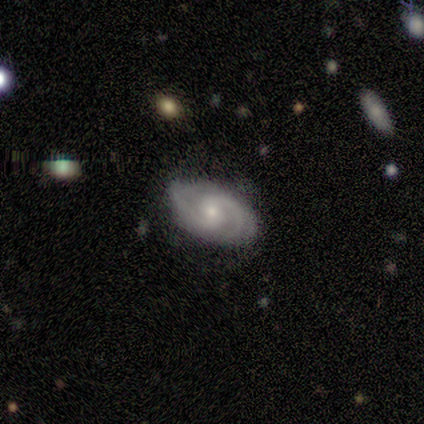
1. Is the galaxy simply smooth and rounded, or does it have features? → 100% featured or disk, 0% smooth, 0% star or artifact.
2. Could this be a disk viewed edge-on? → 100% no, 0% yes.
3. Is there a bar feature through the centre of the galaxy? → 80% weak, 20% no, 0% strong.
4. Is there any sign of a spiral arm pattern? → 100% yes, 0% no.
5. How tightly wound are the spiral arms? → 60% tight, 40% medium, 0% loose.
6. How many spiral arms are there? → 60% 2, 40% can't tell, 0% 1, 0% 3, 0% 4, 0% more than 4.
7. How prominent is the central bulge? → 100% moderate, 0% dominant, 0% large, 0% small, 0% none.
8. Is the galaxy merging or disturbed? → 60% none, 40% minor disturbance, 0% major disturbance, 0% merger.